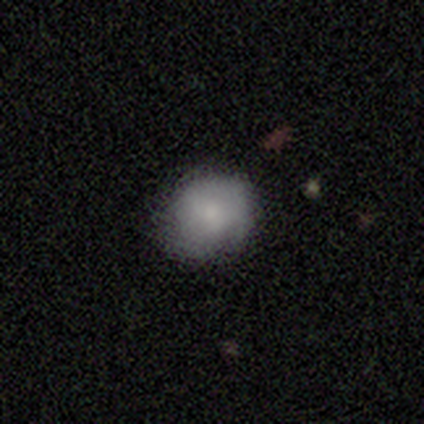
Smooth or featured? 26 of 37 (70%) said smooth. How rounded? 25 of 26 (96%) said round. Merging? 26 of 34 (76%) said none.